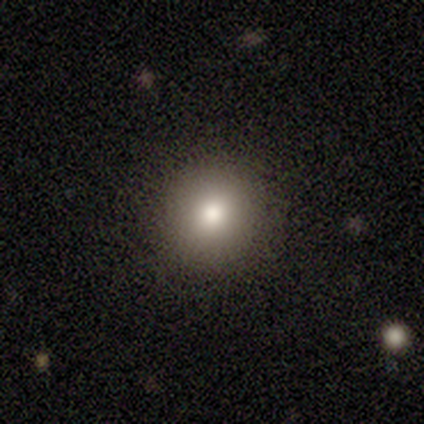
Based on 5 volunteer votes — smooth_or_featured: smooth (p=1.00)
how_rounded: round (p=1.00)
merging: none (p=0.80) [alt: major disturbance p=0.20]